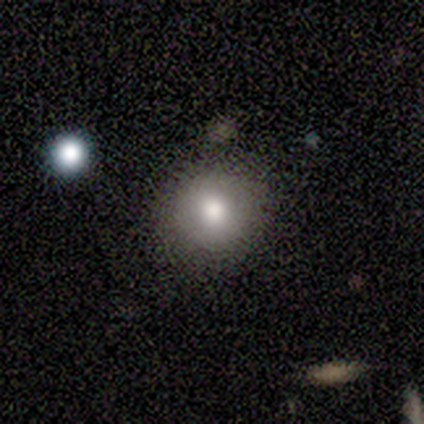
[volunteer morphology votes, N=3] Smooth or featured? smooth (100%)
How rounded? round (100%)
Merging? none (100%)